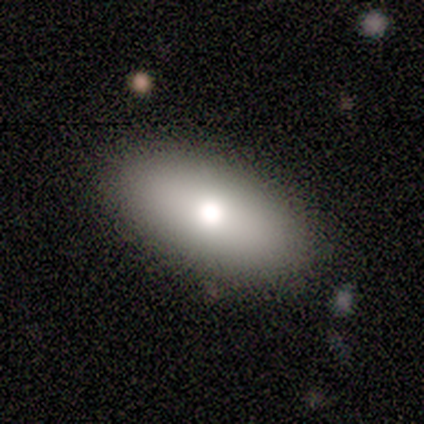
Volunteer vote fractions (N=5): A smooth galaxy with no disk features (80%) that is in between round and cigar-shaped (100%). Merging: none (100%).